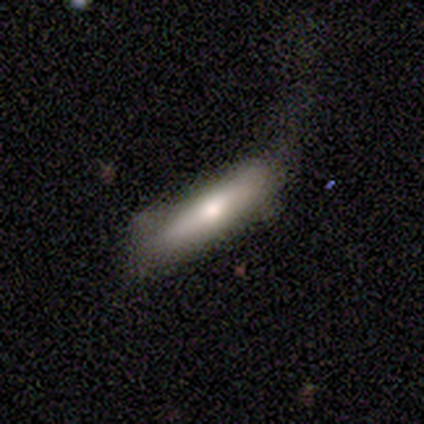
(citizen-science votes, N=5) Overall: smooth (40%, tied with featured or disk). How rounded: cigar-shaped (100%). Merging: none (100%).